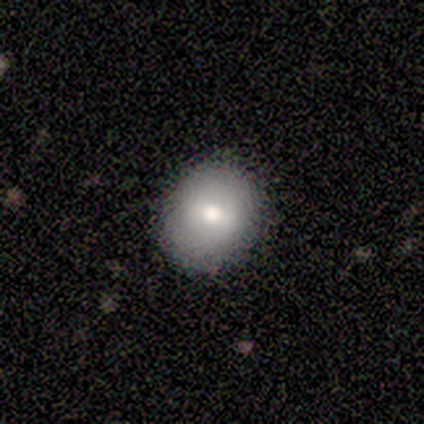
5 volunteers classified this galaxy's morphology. smooth 60%, featured or disk 20%, star or artifact 20%. Down the decision tree: how rounded — round (100%); merging — none (75%).